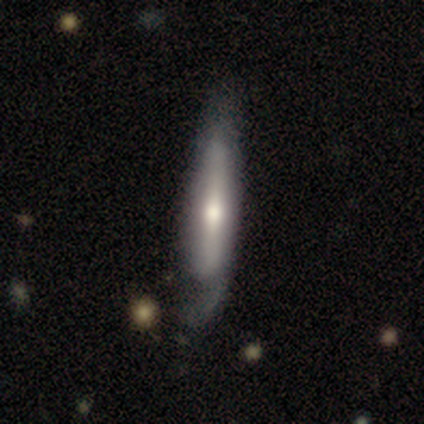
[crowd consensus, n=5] smooth 60%, featured or disk 40%, star or artifact 0%. Down the decision tree: how rounded — cigar-shaped (100%); merging — none (80%).